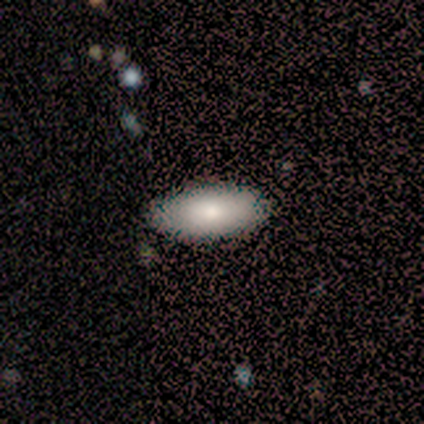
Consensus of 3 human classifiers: smooth-or-featured: smooth: 100% | featured or disk: 0% | star or artifact: 0%
  how-rounded: in between: 100% | round: 0% | cigar-shaped: 0%
  merging: none: 100% | minor disturbance: 0% | major disturbance: 0% | merger: 0%